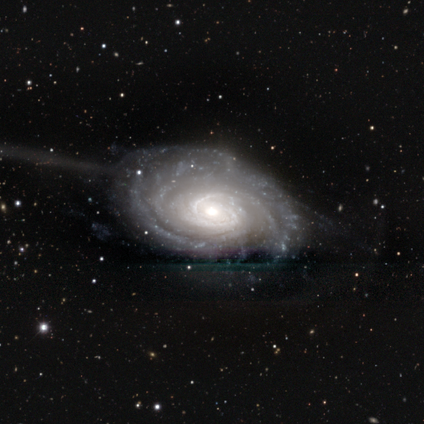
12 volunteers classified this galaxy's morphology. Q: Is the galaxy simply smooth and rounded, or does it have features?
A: featured or disk — 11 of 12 (92%).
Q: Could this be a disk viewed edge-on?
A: no — 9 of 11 (82%).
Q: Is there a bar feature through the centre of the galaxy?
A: weak — 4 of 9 (44%, tied with no).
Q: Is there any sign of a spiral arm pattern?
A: yes — 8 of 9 (89%).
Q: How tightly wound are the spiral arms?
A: tight — 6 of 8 (75%).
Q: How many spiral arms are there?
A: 3 — 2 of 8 (25%, tied with more than 4 and can't tell).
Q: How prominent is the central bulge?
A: moderate — 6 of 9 (67%).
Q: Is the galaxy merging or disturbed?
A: none — 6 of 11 (55%).